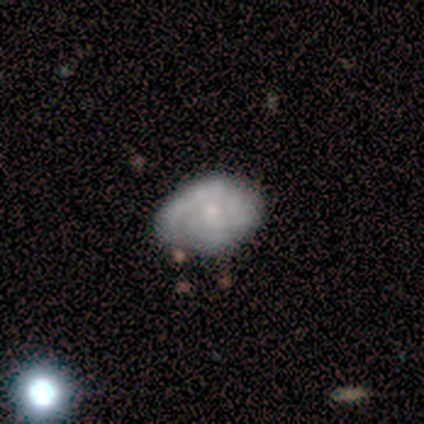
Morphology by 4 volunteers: This is clearly a smooth galaxy (100%). How rounded: clearly in between (100%). Merging: clearly none (100%).